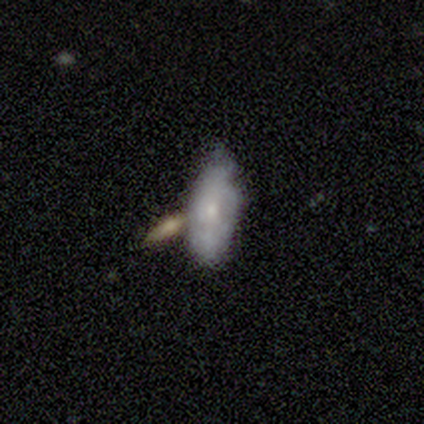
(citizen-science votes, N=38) Volunteers were most divided on "merging" (2-way tie): none: 36%, merger: 36%, minor disturbance: 24%, major disturbance: 3%. More confident: how rounded — in between (100%); smooth or featured — smooth (55%).